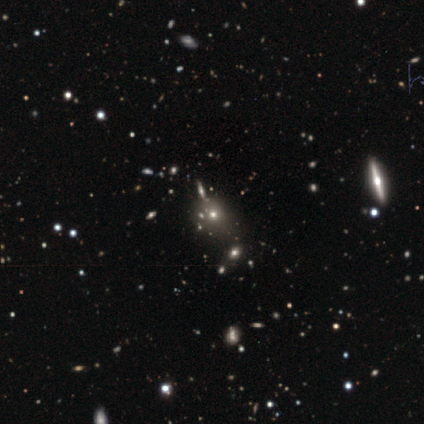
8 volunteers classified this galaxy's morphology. Overall: smooth (62%; star or artifact 25%). How rounded: round (80%). Merging: none (100%).